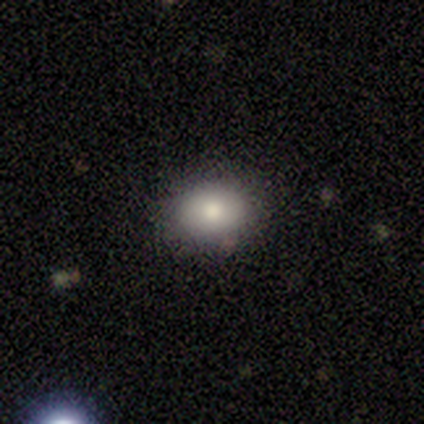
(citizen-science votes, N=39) smooth 79%, featured or disk 15%, star or artifact 5%. Down the decision tree: how rounded — in between (68%); merging — none (86%).